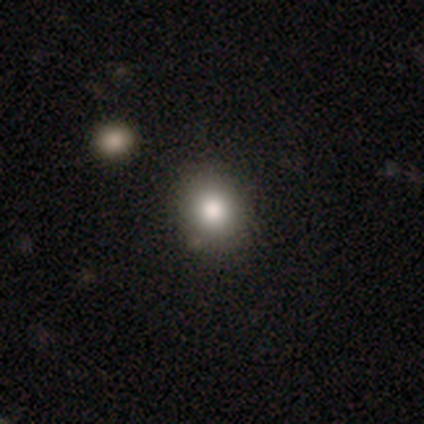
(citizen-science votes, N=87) A smooth galaxy with no disk features (79%) that is round (78%).

Vote fractions:
- Smooth or featured? smooth: 79% / star or artifact: 14% / featured or disk: 7%
- How rounded? round: 78% / in between: 22% / cigar-shaped: 0%
- Merging? none: 88% / minor disturbance: 12% / major disturbance: 0% / merger: 0%